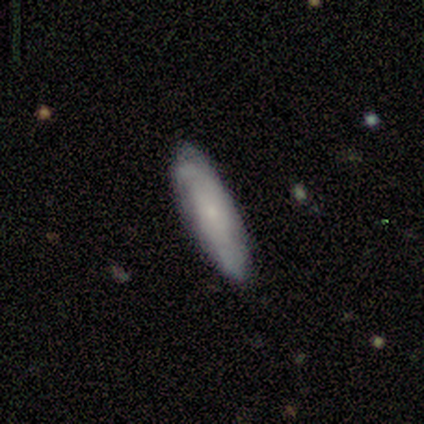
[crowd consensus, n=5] Smooth or featured? smooth (100%)
How rounded? in between (80%)
Merging? none (60%)